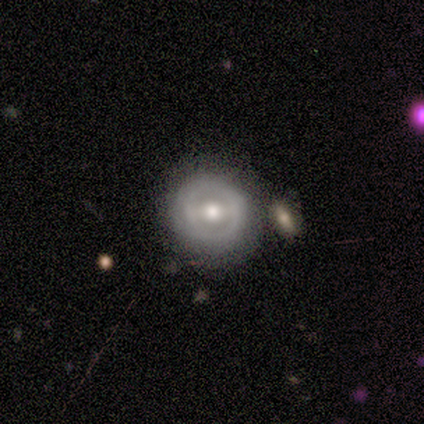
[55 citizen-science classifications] Volunteers were most divided on "bar": no: 38%, weak: 32%, strong: 30%. More confident: edge-on disk — no (95%); bulge size — moderate (84%); merging — none (73%); smooth or featured — featured or disk (71%); spiral arms — no (59%).